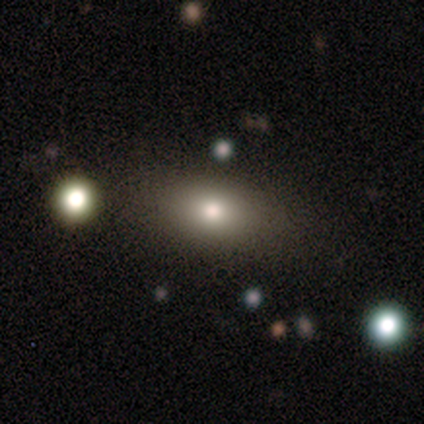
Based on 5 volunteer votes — Q: Smooth or featured?
A: smooth (100%)
Q: How rounded?
A: in between (100%)
Q: Merging?
A: none (100%)